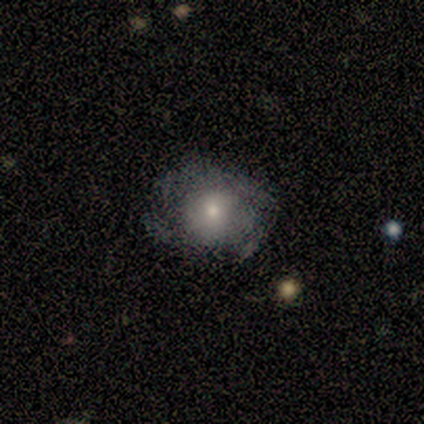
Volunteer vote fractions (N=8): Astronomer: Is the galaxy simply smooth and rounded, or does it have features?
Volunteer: smooth — 50%, tied with featured or disk at 50%.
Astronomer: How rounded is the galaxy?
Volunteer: round — 75%.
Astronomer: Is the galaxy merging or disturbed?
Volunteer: none — 50%.